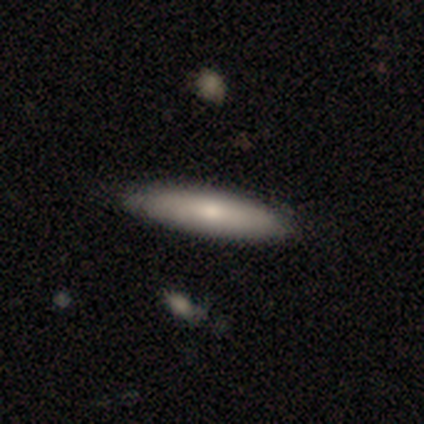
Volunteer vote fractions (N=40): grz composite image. It shows a smooth galaxy with no disk features (75%) that is cigar-shaped (80%). Merging: none (67%).